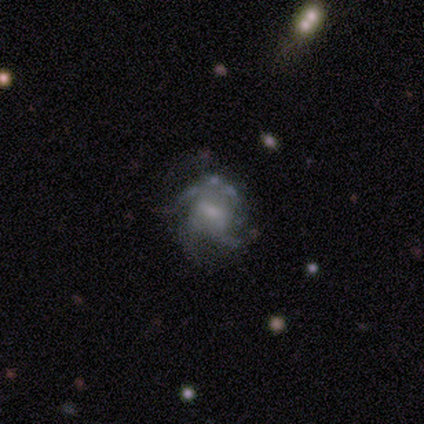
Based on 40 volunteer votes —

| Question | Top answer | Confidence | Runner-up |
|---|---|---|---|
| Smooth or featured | featured or disk | 68% | smooth (18%) |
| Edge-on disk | no | 96% | yes (4%) |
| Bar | weak | 65% | no (31%) |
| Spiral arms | yes | 62% | no (38%) |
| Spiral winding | medium | 62% | tight (31%) |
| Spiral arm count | can't tell | 31% | 3 (25%) |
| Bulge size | small | 54% | none (23%) |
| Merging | none | 53% | minor disturbance (24%) |